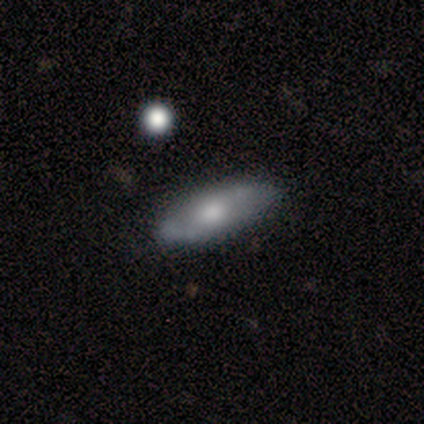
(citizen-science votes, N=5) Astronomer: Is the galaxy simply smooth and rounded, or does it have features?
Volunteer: smooth — 100%.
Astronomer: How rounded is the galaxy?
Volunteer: in between — 80%.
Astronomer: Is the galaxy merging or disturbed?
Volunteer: none — 60% (runner-up: minor disturbance, 40%).